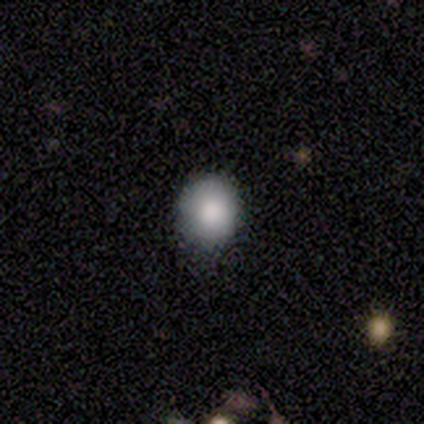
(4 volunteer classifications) This appears to be a smooth galaxy with no disk features (100%) that is round (75%). Merging: none (100%).